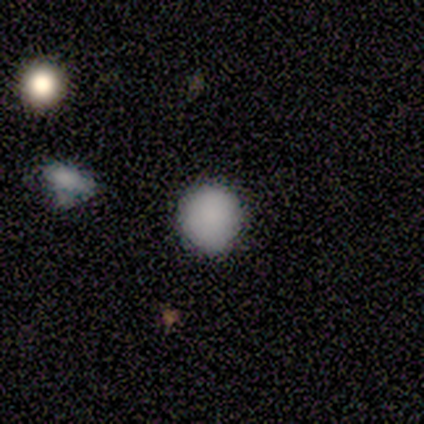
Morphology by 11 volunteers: A smooth galaxy with no disk features (91%) that is round (100%). Merging: none (100%).